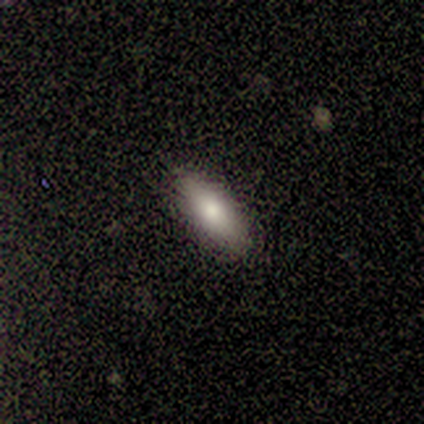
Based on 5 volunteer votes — smooth 100%, featured or disk 0%, star or artifact 0%. Down the decision tree: how rounded — in between (60%); merging — none (100%).